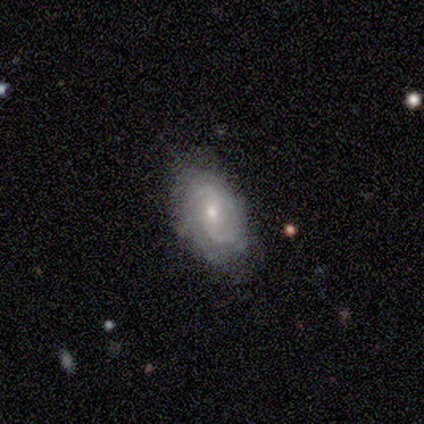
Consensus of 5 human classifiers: Smooth or featured? featured or disk (80%)
Edge-on disk? no (100%)
Bar? weak (75%)
Spiral arms? yes (100%)
Spiral winding? medium (50%, tied with loose)
Spiral arm count? 2 (100%)
Bulge size? moderate (50%, tied with small)
Merging? none (100%)